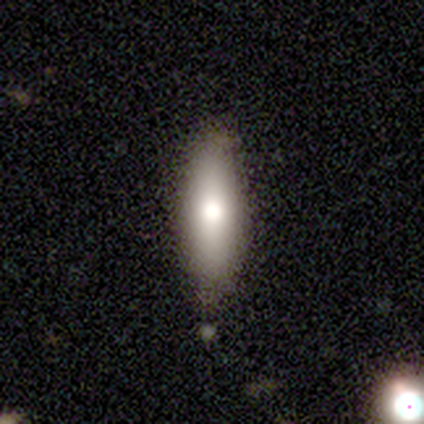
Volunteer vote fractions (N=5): smooth_or_featured: smooth (p=0.80) [alt: featured or disk p=0.20]
how_rounded: cigar-shaped (p=1.00)
merging: none (p=1.00)